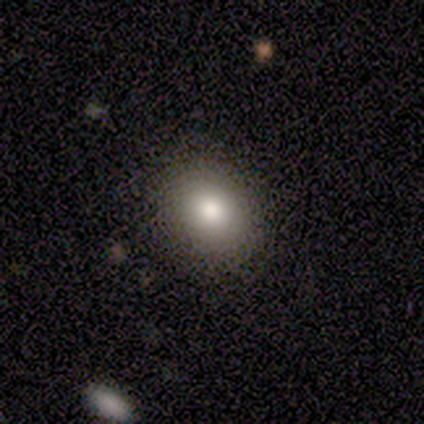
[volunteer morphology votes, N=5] smooth 80%, featured or disk 20%, star or artifact 0%. Down the decision tree: how rounded — round (50%, tied with in between); merging — none (100%).